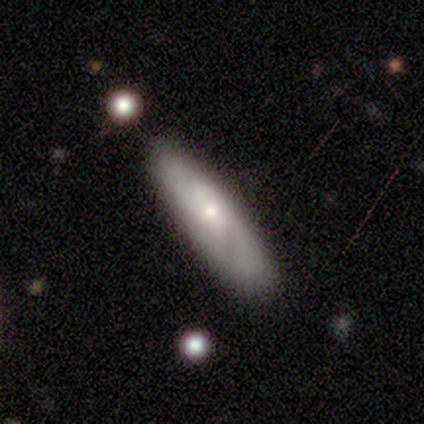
Morphology: type=featured or disk (100%); edge-on=yes (50%, tied with no); edge-on bulge=rounded (67%); merging=none (100%).